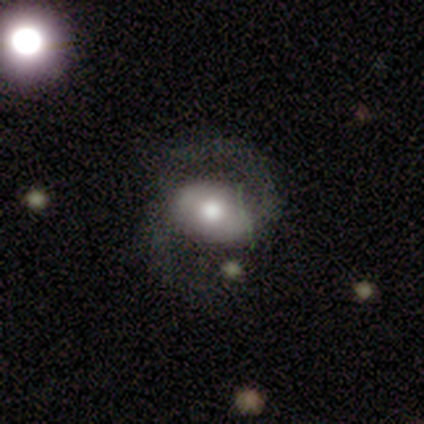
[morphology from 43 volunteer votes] featured or disk 74%, smooth 21%, star or artifact 5%. Down the decision tree: edge-on disk — no (97%); bar — weak (48%); spiral arms — yes (97%); spiral arm count — 2 (100%); spiral winding — medium (63%); bulge size — moderate (55%); merging — none (66%).